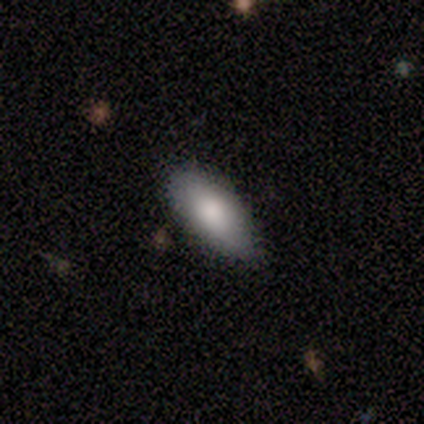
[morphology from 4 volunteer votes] This is clearly a smooth galaxy (100%). How rounded: likely in between (75%). Merging: likely none (75%).